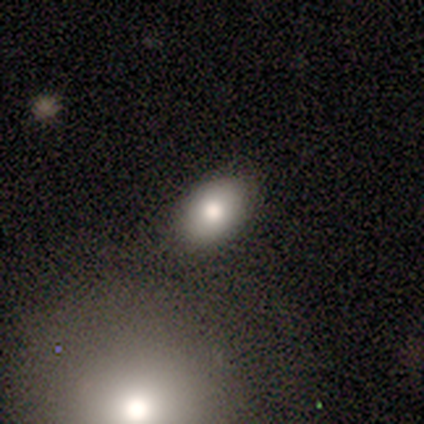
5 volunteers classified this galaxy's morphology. type=smooth (80%); roundness=in between (100%); merging=none (100%).